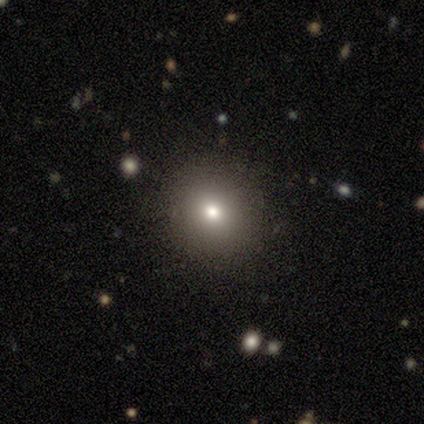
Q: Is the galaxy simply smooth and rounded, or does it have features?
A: smooth — 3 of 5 (60%).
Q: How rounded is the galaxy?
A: round — 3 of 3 (100%).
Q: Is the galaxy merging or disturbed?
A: none — 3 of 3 (100%).